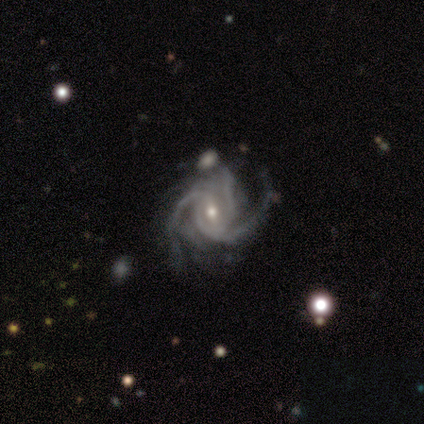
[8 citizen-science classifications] Overall: featured or disk (100%). Edge-on disk: no (100%). Bar: weak (62%; strong 25%). Spiral arms: yes (100%). Spiral arm count: 3 (62%; 4 25%). Spiral winding: tight (50%, tied with medium). Bulge size: moderate (50%, tied with small). Merging: none (50%; minor disturbance 25%).